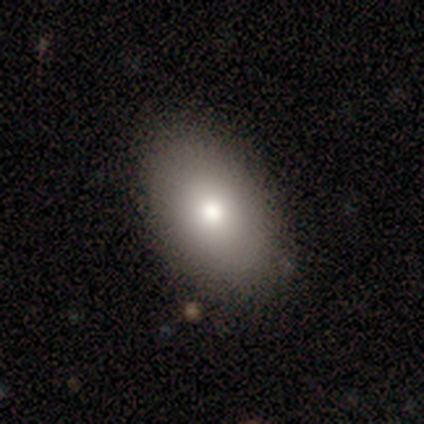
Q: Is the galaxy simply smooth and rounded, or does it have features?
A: smooth — 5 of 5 (100%).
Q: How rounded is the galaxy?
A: in between — 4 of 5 (80%).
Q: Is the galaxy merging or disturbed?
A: none — 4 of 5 (80%).